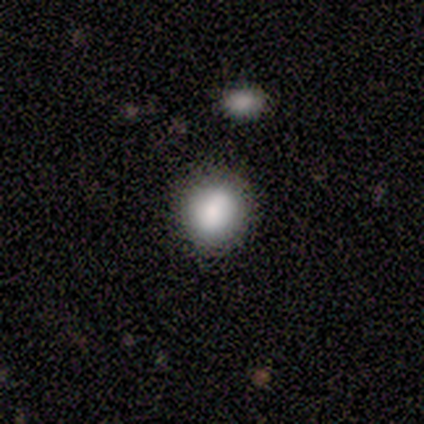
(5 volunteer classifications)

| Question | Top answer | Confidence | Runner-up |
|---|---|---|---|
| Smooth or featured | smooth | 100% | — |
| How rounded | round | 60% | in between (40%) |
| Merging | none | 40% | tied: minor disturbance (40%) |